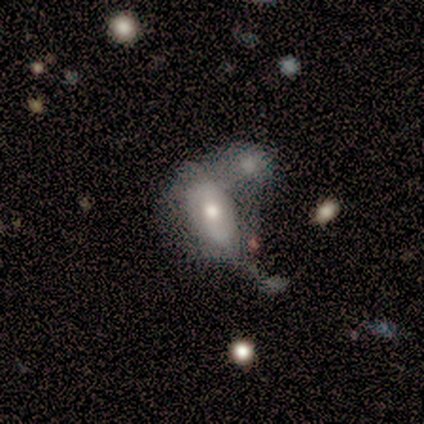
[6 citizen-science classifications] Smooth or featured? 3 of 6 (50%, tied with featured or disk) said smooth. How rounded? 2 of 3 (67%) said in between. Merging? 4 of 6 (67%) said merger.